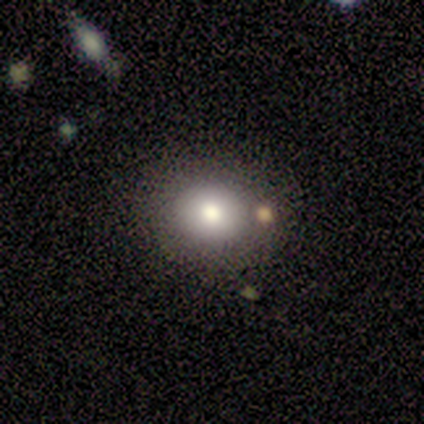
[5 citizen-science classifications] Morphology: type=smooth (60%); roundness=in between (67%); merging=none (100%).